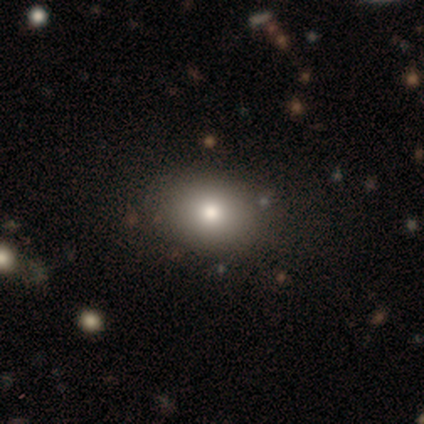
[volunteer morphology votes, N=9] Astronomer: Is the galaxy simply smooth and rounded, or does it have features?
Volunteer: smooth — 100%.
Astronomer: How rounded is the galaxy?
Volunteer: in between — 78%.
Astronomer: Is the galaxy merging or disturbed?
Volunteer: none — 78%.